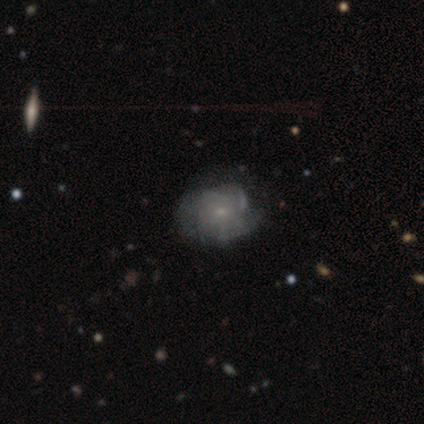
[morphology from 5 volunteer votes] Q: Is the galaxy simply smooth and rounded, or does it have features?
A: featured or disk — 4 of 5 (80%).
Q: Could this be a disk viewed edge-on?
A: no — 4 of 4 (100%).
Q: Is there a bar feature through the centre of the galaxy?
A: weak — 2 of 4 (50%, tied with no).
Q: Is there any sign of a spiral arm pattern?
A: yes — 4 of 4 (100%).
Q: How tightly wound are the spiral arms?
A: tight — 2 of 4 (50%, tied with medium).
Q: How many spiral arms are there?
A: can't tell — 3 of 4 (75%).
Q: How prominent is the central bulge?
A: small — 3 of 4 (75%).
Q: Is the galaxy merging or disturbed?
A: none — 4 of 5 (80%).